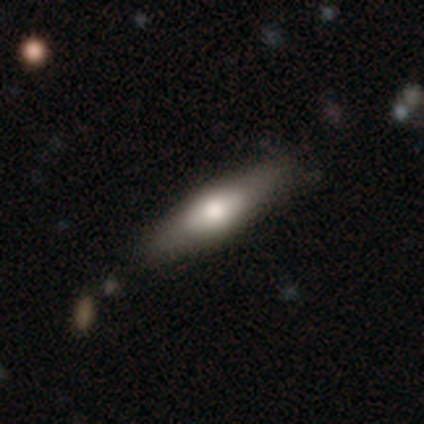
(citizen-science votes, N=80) This is likely a smooth galaxy (60%). How rounded: possibly cigar-shaped (52%). Merging: marginally none (38%).